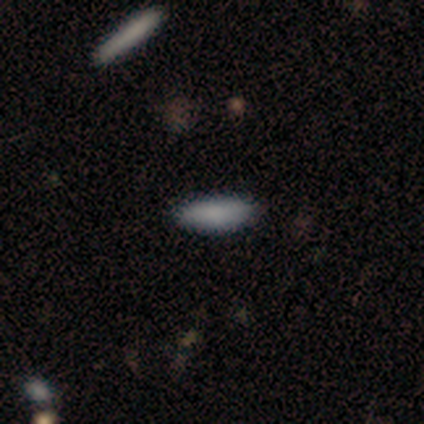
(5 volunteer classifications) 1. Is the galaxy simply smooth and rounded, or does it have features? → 100% smooth, 0% featured or disk, 0% star or artifact.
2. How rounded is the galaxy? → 60% in between, 40% cigar-shaped, 0% round.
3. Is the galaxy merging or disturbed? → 100% none, 0% minor disturbance, 0% major disturbance, 0% merger.